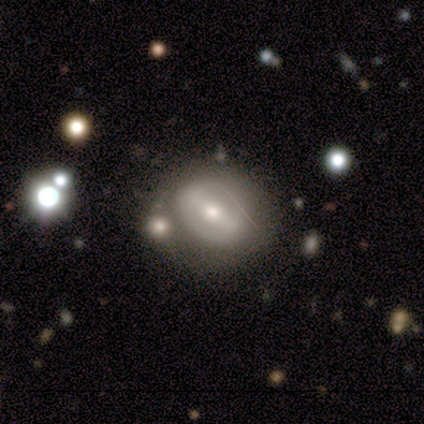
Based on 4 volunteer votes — This is likely a featured or disk galaxy (75%). It is clearly not viewed edge-on (100%). Bar: likely weak (67%). Spiral arm pattern: likely no (67%). Central bulge: likely small (67%). Merging: possibly none (50%).